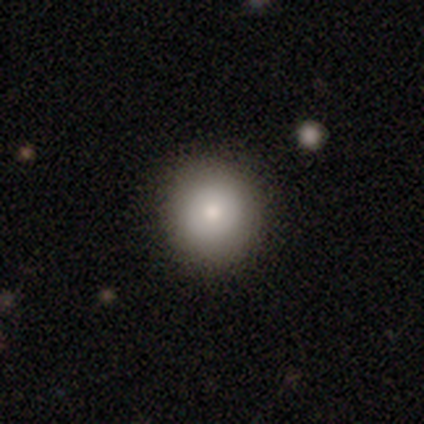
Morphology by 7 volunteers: This appears to be a smooth galaxy with no disk features (86%) that is round (100%). Merging: none (100%).